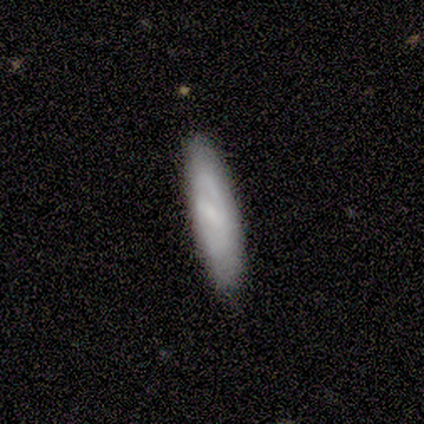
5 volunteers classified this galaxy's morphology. smooth-or-featured: smooth: 60% | featured or disk: 40% | star or artifact: 0%
  how-rounded: cigar-shaped: 67% | in between: 33% | round: 0%
  merging: none: 80% | major disturbance: 20% | minor disturbance: 0% | merger: 0%